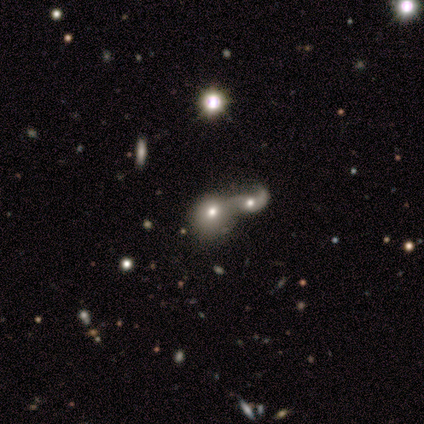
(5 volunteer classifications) smooth_or_featured: featured or disk (p=0.60) [alt: smooth p=0.40]
disk_edge_on: no (p=1.00)
bar: no (p=1.00)
has_spiral_arms: no (p=1.00)
bulge_size: moderate (p=0.67) [alt: small p=0.33]
merging: merger (p=0.80) [alt: minor disturbance p=0.20]